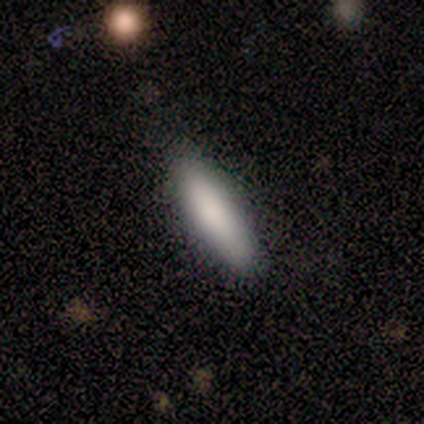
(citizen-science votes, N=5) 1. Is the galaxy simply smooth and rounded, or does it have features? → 80% smooth, 20% star or artifact, 0% featured or disk.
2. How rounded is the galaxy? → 75% cigar-shaped, 25% in between, 0% round.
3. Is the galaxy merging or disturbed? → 75% none, 25% minor disturbance, 0% major disturbance, 0% merger.